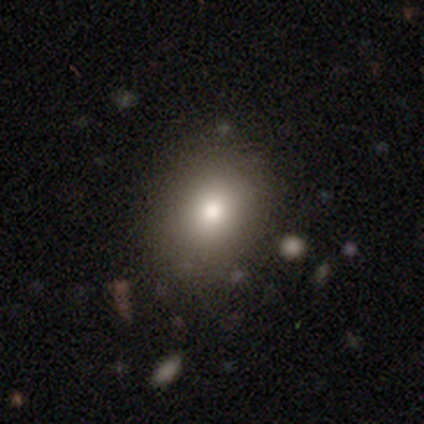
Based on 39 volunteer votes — A smooth galaxy with no disk features (74%) that is round (59%). Merging: none (78%).